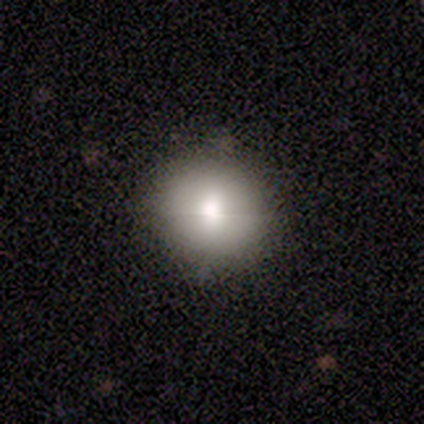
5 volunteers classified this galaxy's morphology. A smooth galaxy with no disk features (60%) that is round (100%). Merging: none (75%).